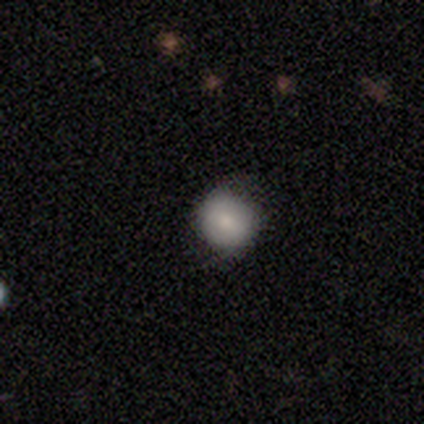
This appears to be a smooth galaxy with no disk features (67%) that is round (100%). Merging: none (50%, tied with minor disturbance).